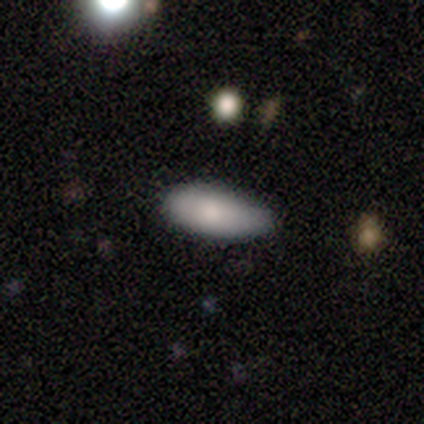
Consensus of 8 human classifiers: Smooth or featured?
  - smooth: 88% *
  - star or artifact: 12%
  - featured or disk: 0%
How rounded?
  - in between: 86% *
  - cigar-shaped: 14%
  - round: 0%
Merging?
  - none: 71% *
  - minor disturbance: 29%
  - major disturbance: 0%
  - merger: 0%